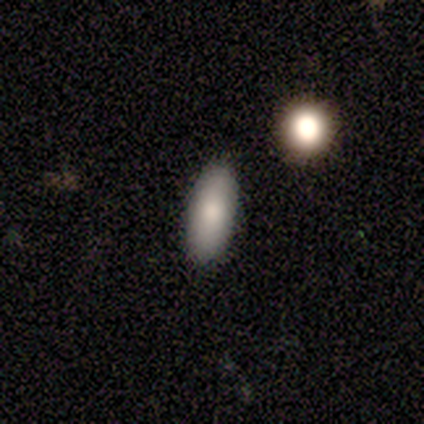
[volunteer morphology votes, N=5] Smooth or featured: smooth — 100%
How rounded: in between — 80% (cigar-shaped — 20%)
Merging: none — 80% (merger — 20%)